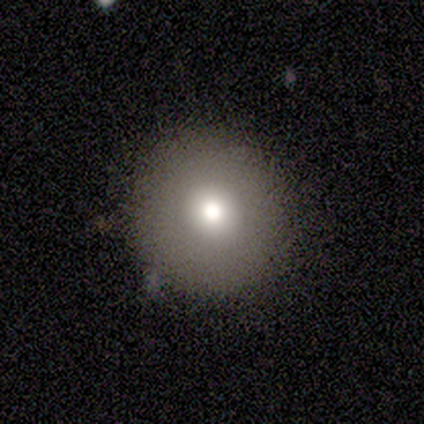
A smooth galaxy with no disk features (60%) that is round (100%).

Vote fractions:
- Smooth or featured? smooth: 60% / featured or disk: 20% / star or artifact: 20%
- How rounded? round: 100% / in between: 0% / cigar-shaped: 0%
- Merging? none: 75% / minor disturbance: 25% / major disturbance: 0% / merger: 0%